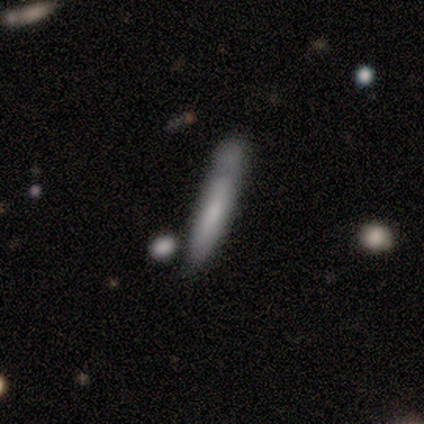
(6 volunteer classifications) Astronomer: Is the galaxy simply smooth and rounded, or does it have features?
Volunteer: smooth — 67%.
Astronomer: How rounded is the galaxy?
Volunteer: in between — 50%, tied with cigar-shaped at 50%.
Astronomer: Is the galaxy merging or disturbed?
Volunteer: minor disturbance — 60%.